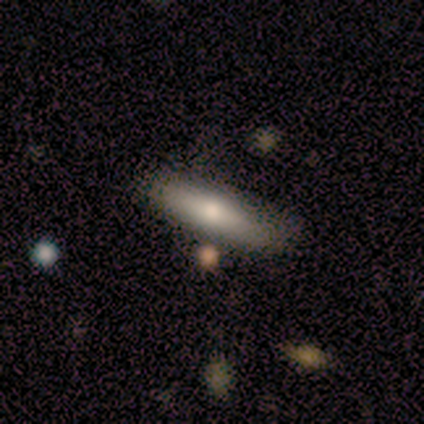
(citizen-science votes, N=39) A smooth galaxy with no disk features (64%) that is cigar-shaped (64%).

Vote fractions:
- Smooth or featured? smooth: 64% / featured or disk: 23% / star or artifact: 13%
- How rounded? cigar-shaped: 64% / in between: 32% / round: 4%
- Merging? none: 74% / minor disturbance: 18% / merger: 9% / major disturbance: 0%